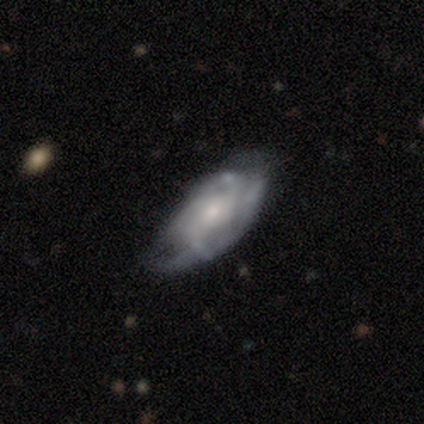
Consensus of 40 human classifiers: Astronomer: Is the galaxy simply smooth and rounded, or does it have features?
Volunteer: featured or disk — 70%.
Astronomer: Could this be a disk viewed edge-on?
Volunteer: no — 100%.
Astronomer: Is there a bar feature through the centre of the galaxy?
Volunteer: no — 68%.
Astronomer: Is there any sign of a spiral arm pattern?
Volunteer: yes — 89%.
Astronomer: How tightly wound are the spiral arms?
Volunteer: loose — 40% (runner-up: tight, 36%).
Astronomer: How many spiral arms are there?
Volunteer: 2 — 40% (runner-up: can't tell, 36%).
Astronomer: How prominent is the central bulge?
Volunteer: small — 46% (runner-up: moderate, 43%).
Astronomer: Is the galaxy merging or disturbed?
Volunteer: none — 56%.